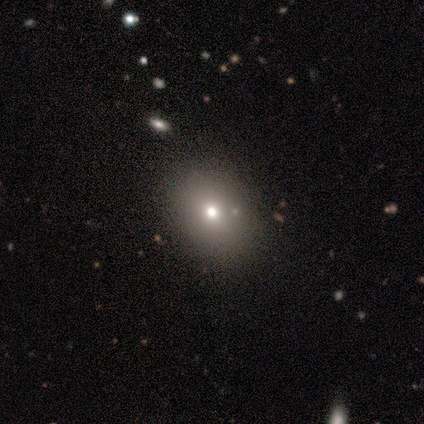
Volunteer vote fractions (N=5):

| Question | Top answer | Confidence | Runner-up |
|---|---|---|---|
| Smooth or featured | smooth | 80% | featured or disk (20%) |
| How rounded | round | 50% | tied: in between (50%) |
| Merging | none | 100% | — |